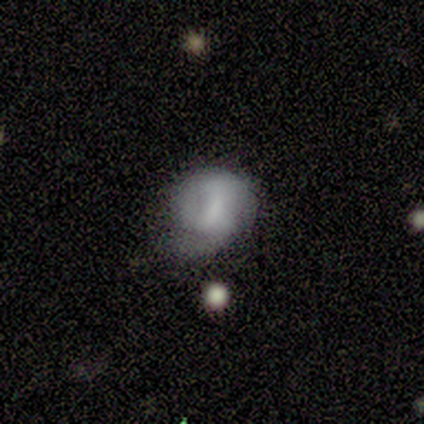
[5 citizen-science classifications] This is clearly a smooth galaxy (80%). How rounded: clearly round (100%). Merging: likely none (60%).